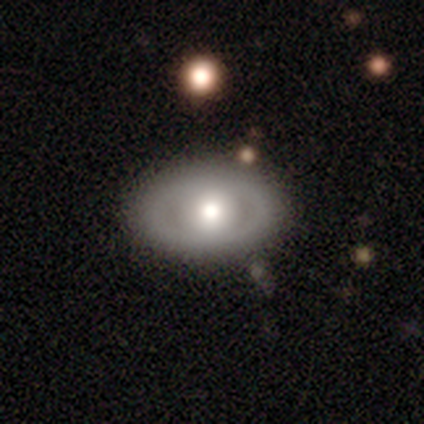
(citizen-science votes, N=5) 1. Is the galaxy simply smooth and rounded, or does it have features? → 60% featured or disk, 40% smooth, 0% star or artifact.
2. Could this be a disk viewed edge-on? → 100% no, 0% yes.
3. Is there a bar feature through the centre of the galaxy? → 100% no, 0% strong, 0% weak.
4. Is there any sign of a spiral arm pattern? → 100% no, 0% yes.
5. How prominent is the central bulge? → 67% large, 33% moderate, 0% dominant, 0% small, 0% none.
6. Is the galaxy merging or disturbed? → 60% none, 20% minor disturbance, 20% merger, 0% major disturbance.